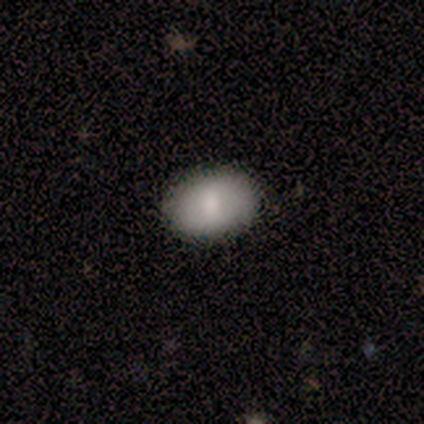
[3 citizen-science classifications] smooth-or-featured: smooth: 100% | featured or disk: 0% | star or artifact: 0%
  how-rounded: in between: 67% | round: 33% | cigar-shaped: 0%
  merging: minor disturbance: 67% | none: 33% | major disturbance: 0% | merger: 0%